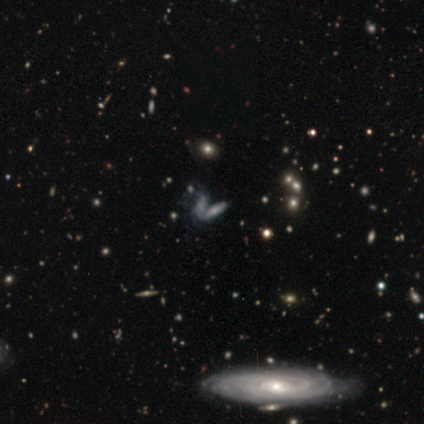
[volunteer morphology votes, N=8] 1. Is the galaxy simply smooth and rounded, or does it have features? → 38% smooth (tied), 38% star or artifact (tied), 25% featured or disk.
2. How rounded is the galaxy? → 67% cigar-shaped, 33% in between, 0% round.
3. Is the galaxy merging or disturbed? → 80% none, 20% merger, 0% minor disturbance, 0% major disturbance.